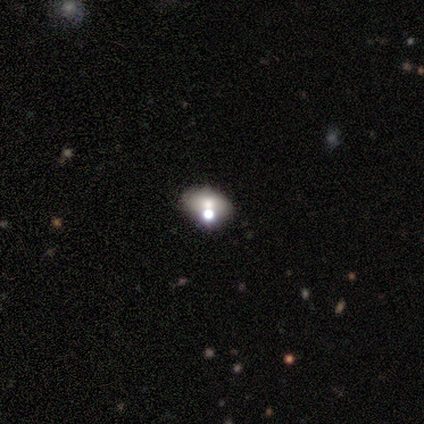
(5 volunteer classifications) A smooth galaxy with no disk features (80%) that is in between round and cigar-shaped (75%).

Vote fractions:
- Smooth or featured? smooth: 80% / star or artifact: 20% / featured or disk: 0%
- How rounded? in between: 75% / round: 25% / cigar-shaped: 0%
- Merging? none: 75% / merger: 25% / minor disturbance: 0% / major disturbance: 0%